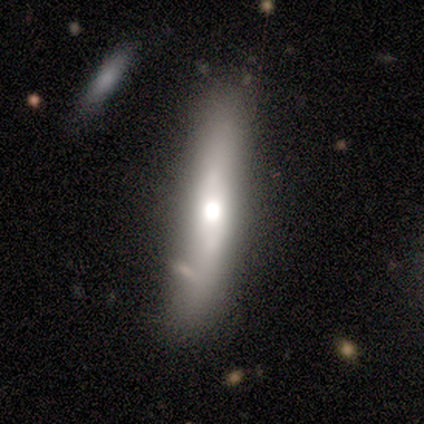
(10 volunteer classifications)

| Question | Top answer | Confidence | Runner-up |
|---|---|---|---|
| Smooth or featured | smooth | 50% | tied: featured or disk (50%) |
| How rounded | cigar-shaped | 80% | in between (20%) |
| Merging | none | 80% | minor disturbance (20%) |